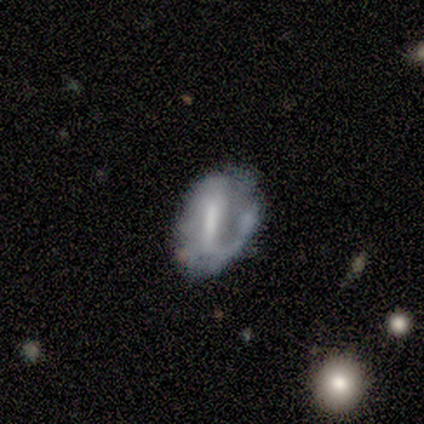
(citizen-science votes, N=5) Smooth or featured?
  - featured or disk: 80% *
  - smooth: 20%
  - star or artifact: 0%
Edge-on disk?
  - no: 75% *
  - yes: 25%
Bar?
  - strong: 100% *
  - weak: 0%
  - no: 0%
Spiral arms?
  - yes: 67% *
  - no: 33%
Spiral winding?
  - medium: 50% * (tied)
  - loose: 50% * (tied)
  - tight: 0%
Spiral arm count?
  - 1: 50% * (tied)
  - 2: 50% * (tied)
  - 3: 0%
  - 4: 0%
  - more than 4: 0%
  - can't tell: 0%
Bulge size?
  - moderate: 67% *
  - small: 33%
  - dominant: 0%
  - large: 0%
  - none: 0%
Merging?
  - none: 60% *
  - minor disturbance: 20%
  - merger: 20%
  - major disturbance: 0%